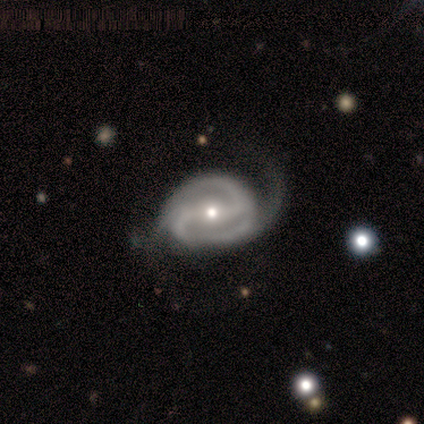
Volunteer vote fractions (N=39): Volunteers were most divided on "merging" (2-way tie): none: 42%, minor disturbance: 42%, major disturbance: 16%, merger: 0%. More confident: edge-on disk — no (100%); spiral arms — yes (100%); spiral arm count — 2 (94%); smooth or featured — featured or disk (92%); bar — strong (69%); spiral winding — medium (53%); bulge size — small (53%).